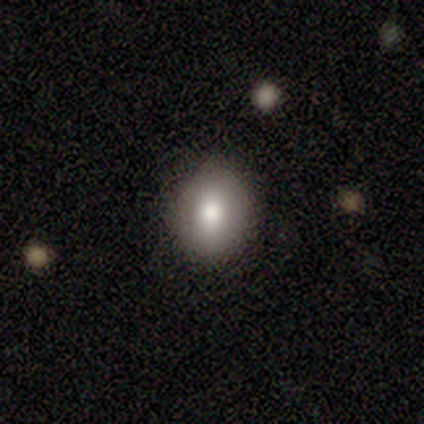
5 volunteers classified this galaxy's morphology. smooth 80%, featured or disk 20%, star or artifact 0%. Down the decision tree: how rounded — round (100%); merging — none (100%).